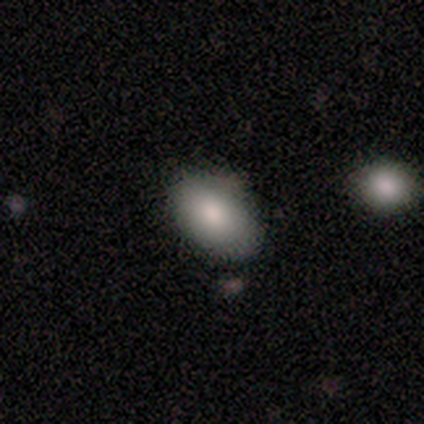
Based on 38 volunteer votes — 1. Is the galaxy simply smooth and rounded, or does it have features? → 68% smooth, 18% star or artifact, 13% featured or disk.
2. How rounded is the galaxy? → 92% in between, 8% round, 0% cigar-shaped.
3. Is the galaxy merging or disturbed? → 87% none, 10% minor disturbance, 3% major disturbance, 0% merger.